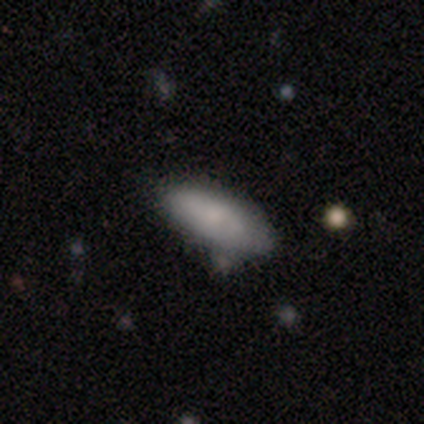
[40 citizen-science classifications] Q: Smooth or featured?
A: smooth (85%); runner-up: featured or disk (12%)
Q: How rounded?
A: in between (85%); runner-up: cigar-shaped (15%)
Q: Merging?
A: none (77%); runner-up: minor disturbance (15%)